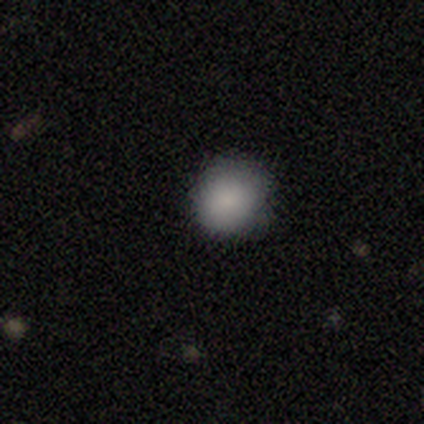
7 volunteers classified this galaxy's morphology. Volunteers were most divided on "how rounded": round: 83%, in between: 17%, cigar-shaped: 0%. More confident: smooth or featured — smooth (86%); merging — none (83%).